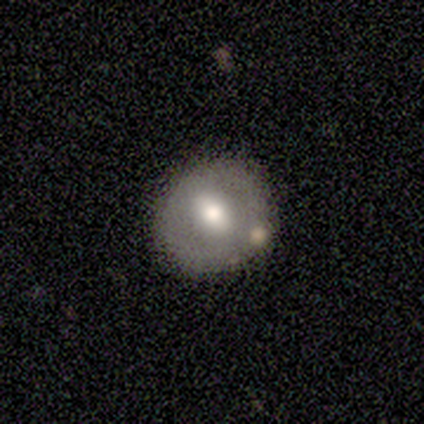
Q: Smooth or featured?
A: featured or disk (50%); runner-up: smooth (25%)
Q: Edge-on disk?
A: no (100%)
Q: Bar?
A: strong (50%); tied with: weak (50%)
Q: Spiral arms?
A: no (100%)
Q: Bulge size?
A: moderate (100%)
Q: Merging?
A: none (100%)